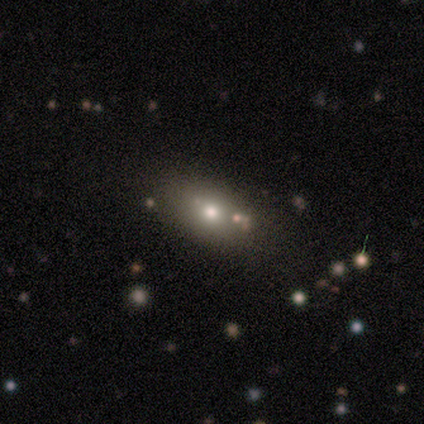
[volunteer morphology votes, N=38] smooth_or_featured: smooth (p=0.87) [alt: featured or disk p=0.11]
how_rounded: in between (p=0.79) [alt: round p=0.21]
merging: none (p=0.84) [alt: major disturbance p=0.08]